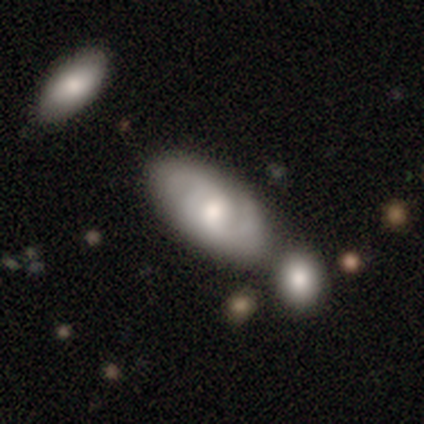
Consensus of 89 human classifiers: smooth_or_featured: featured or disk (p=0.53) [alt: smooth p=0.42]
disk_edge_on: no (p=0.81) [alt: yes p=0.19]
bar: no (p=0.50) [alt: weak p=0.42]
has_spiral_arms: yes (p=0.92) [alt: no p=0.08]
spiral_winding: medium (p=0.51) [alt: tight p=0.34]
spiral_arm_count: 2 (p=0.60) [alt: 3 p=0.17]
bulge_size: moderate (p=0.55) [alt: large p=0.21]
merging: none (p=0.52) [alt: merger p=0.26]